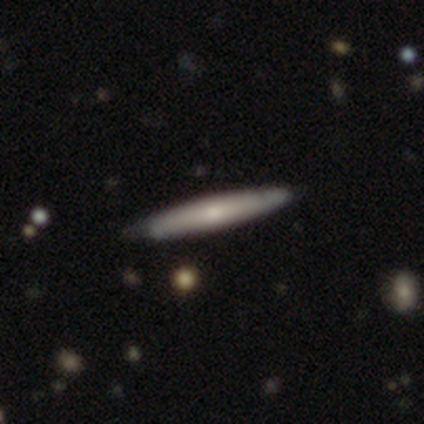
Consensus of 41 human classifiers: This appears to be a smooth galaxy with no disk features (56%) that is cigar-shaped (96%). Merging: none (51%).